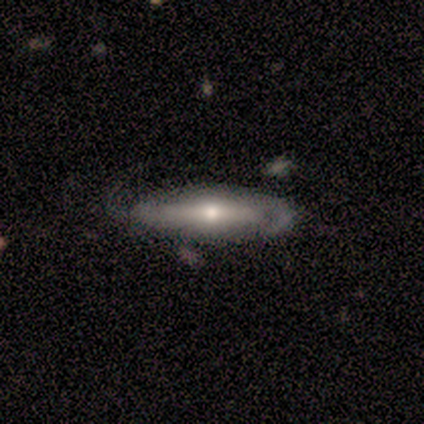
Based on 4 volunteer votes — A featured or disk galaxy (75%) viewed edge-on (67%) with a rounded central bulge (100%). Merging: minor disturbance (75%).